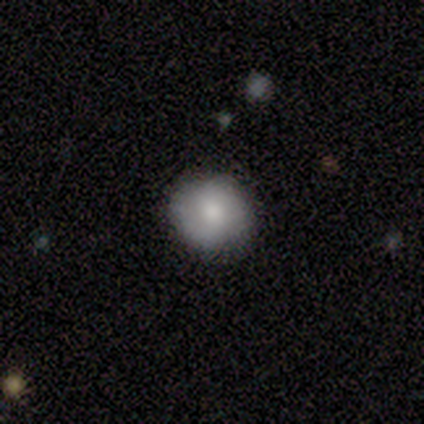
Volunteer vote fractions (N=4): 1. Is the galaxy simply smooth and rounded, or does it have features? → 75% smooth, 25% featured or disk, 0% star or artifact.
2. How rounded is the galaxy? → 67% round, 33% in between, 0% cigar-shaped.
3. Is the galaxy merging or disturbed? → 75% none, 25% major disturbance, 0% minor disturbance, 0% merger.